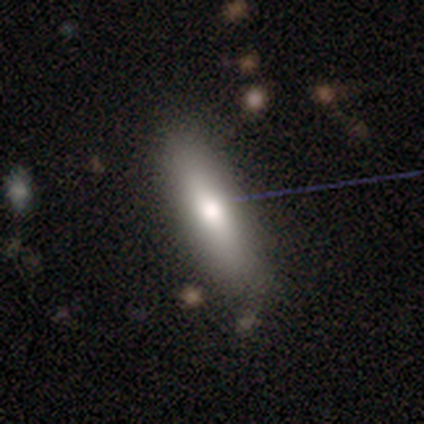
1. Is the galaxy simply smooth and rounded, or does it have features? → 80% smooth, 20% star or artifact, 0% featured or disk.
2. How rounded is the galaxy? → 50% in between (tied), 50% cigar-shaped (tied), 0% round.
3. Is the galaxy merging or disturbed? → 100% none, 0% minor disturbance, 0% major disturbance, 0% merger.